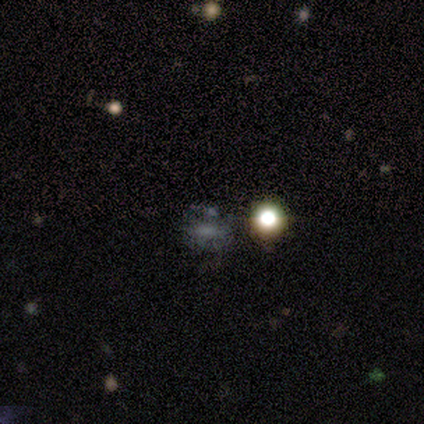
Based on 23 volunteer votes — Smooth or featured? smooth (35%, tied with star or artifact)
How rounded? in between (62%)
Merging? none (47%)